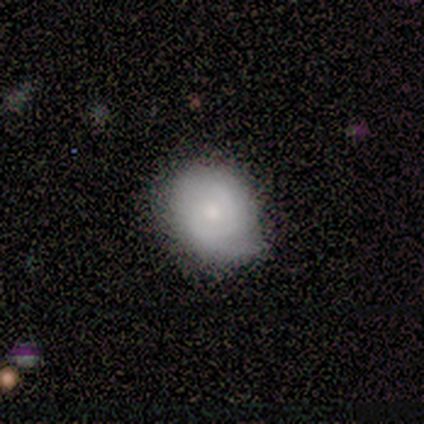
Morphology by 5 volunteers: This appears to be a smooth galaxy with no disk features (100%) that is round (100%). Merging: none (100%).